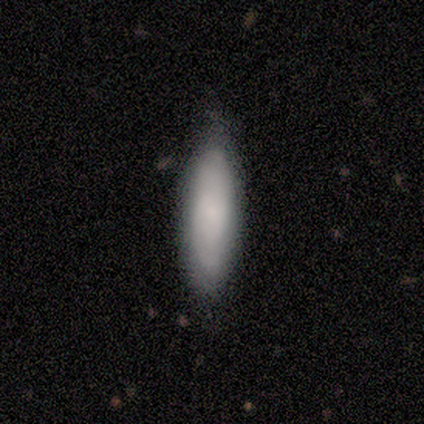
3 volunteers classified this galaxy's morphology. Smooth or featured?
  - smooth: 100% *
  - featured or disk: 0%
  - star or artifact: 0%
How rounded?
  - cigar-shaped: 100% *
  - round: 0%
  - in between: 0%
Merging?
  - none: 100% *
  - minor disturbance: 0%
  - major disturbance: 0%
  - merger: 0%